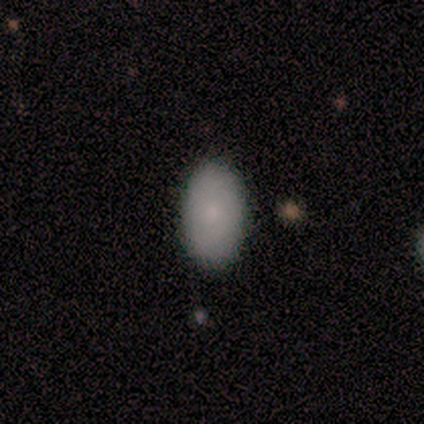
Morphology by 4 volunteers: This appears to be a smooth galaxy with no disk features (75%) that is in between round and cigar-shaped (100%). Merging: none (100%).